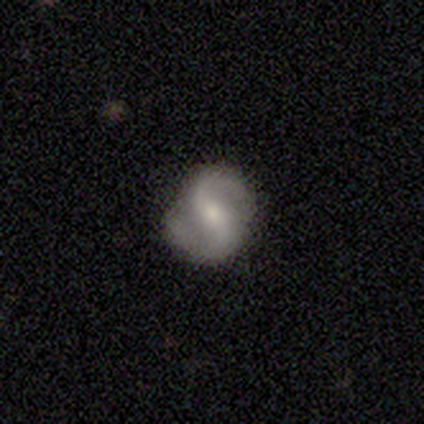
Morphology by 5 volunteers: featured or disk 80%, smooth 20%, star or artifact 0%. Down the decision tree: edge-on disk — no (100%); bar — no (50%); spiral arms — yes (100%); spiral arm count — 2 (100%); spiral winding — medium (50%, tied with loose); bulge size — small (75%); merging — none (60%).